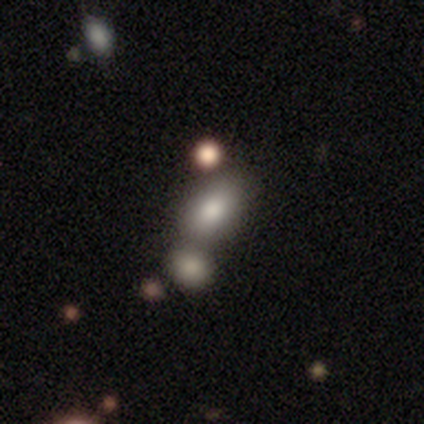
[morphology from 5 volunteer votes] A smooth galaxy with no disk features (60%) that is in between round and cigar-shaped (100%).

Vote fractions:
- Smooth or featured? smooth: 60% / featured or disk: 40% / star or artifact: 0%
- How rounded? in between: 100% / round: 0% / cigar-shaped: 0%
- Merging? minor disturbance: 60% / none: 20% / merger: 20% / major disturbance: 0%